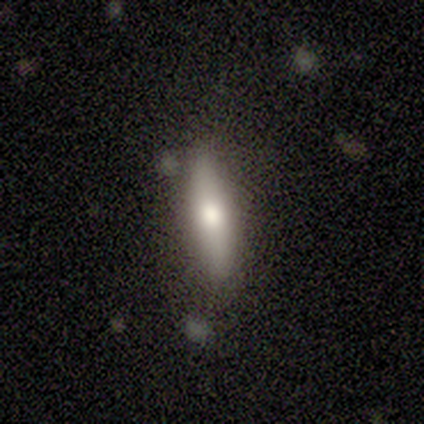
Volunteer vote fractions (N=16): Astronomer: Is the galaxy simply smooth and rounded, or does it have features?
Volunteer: featured or disk — 50% (runner-up: smooth, 44%).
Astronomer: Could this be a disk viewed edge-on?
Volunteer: yes — 75%.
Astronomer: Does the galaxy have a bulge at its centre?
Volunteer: rounded — 83%.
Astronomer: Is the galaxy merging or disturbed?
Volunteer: none — 73%.